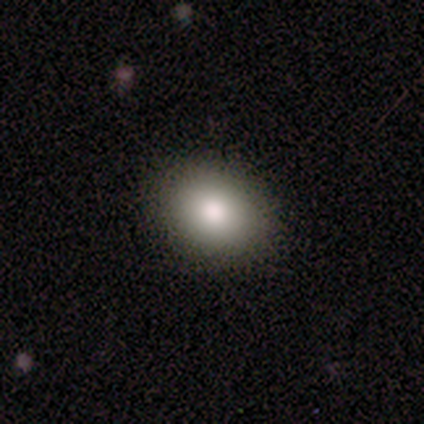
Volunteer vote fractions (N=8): Smooth or featured: smooth — 88% (star or artifact — 12%)
How rounded: in between — 71% (round — 14%)
Merging: none — 86% (minor disturbance — 14%)